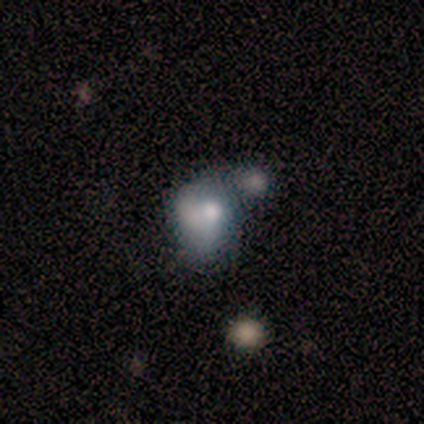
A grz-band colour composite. It shows a smooth galaxy with no disk features (66%) that is in between round and cigar-shaped (60%). Merging: merger (67%).